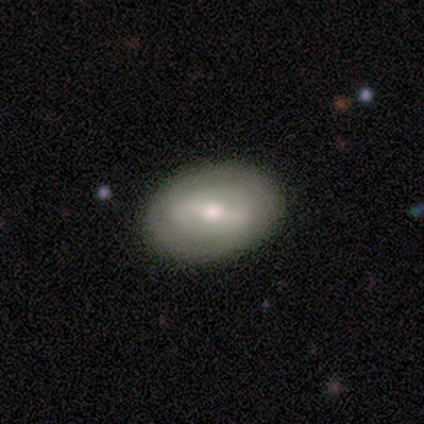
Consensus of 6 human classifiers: Smooth or featured: smooth — 50% (tied with featured or disk — 50%)
How rounded: in between — 67% (round — 33%)
Merging: none — 83% (minor disturbance — 17%)